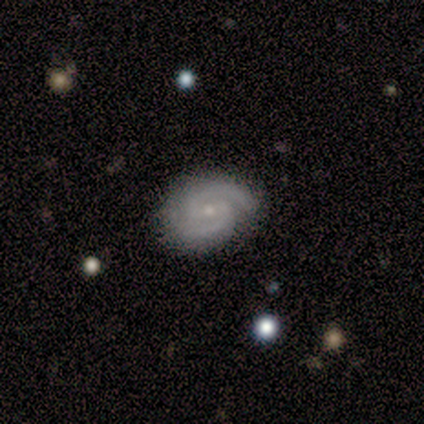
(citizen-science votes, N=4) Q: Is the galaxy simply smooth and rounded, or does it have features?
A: featured or disk — 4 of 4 (100%).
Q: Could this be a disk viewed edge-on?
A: no — 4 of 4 (100%).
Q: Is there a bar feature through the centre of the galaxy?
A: weak — 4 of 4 (100%).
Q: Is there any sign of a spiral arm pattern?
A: yes — 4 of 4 (100%).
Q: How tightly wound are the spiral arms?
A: tight — 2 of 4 (50%, tied with medium).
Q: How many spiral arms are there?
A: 2 — 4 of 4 (100%).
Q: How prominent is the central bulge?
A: small — 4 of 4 (100%).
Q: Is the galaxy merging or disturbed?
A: none — 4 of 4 (100%).